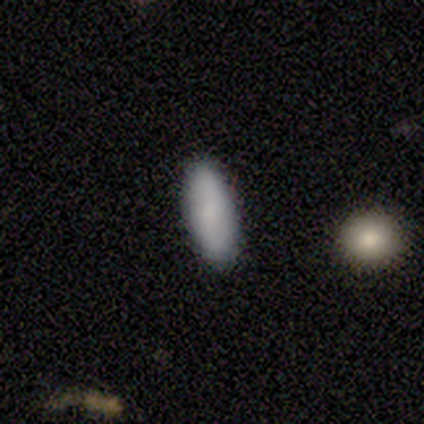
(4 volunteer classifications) Smooth or featured? smooth (75%)
How rounded? cigar-shaped (67%)
Merging? none (75%)